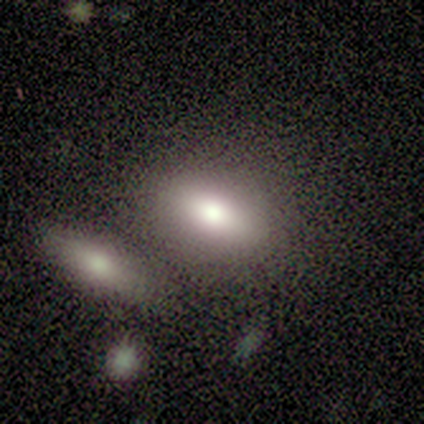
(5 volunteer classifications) Smooth or featured: smooth — 100%
How rounded: in between — 100%
Merging: merger — 40% (none — 20%)